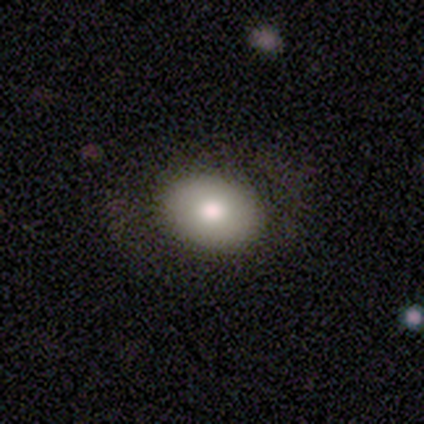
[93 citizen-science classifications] This is likely a smooth galaxy (80%). How rounded: likely in between (72%). Merging: clearly none (82%).